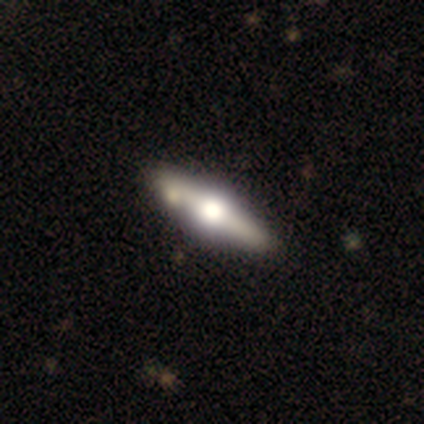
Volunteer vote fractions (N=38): featured or disk 74%, smooth 18%, star or artifact 8%. Down the decision tree: edge-on disk — yes (100%); edge-on bulge — rounded (100%); merging — none (54%).